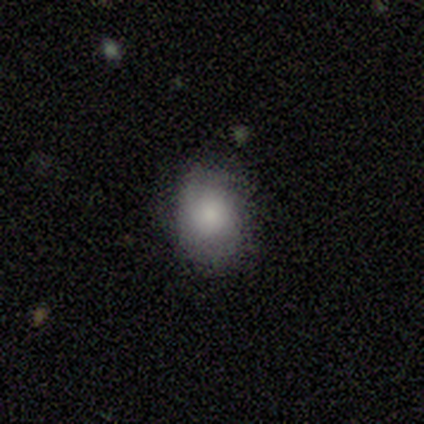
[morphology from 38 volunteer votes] Overall: smooth (74%). How rounded: round (57%; in between 43%). Merging: none (67%; minor disturbance 28%).